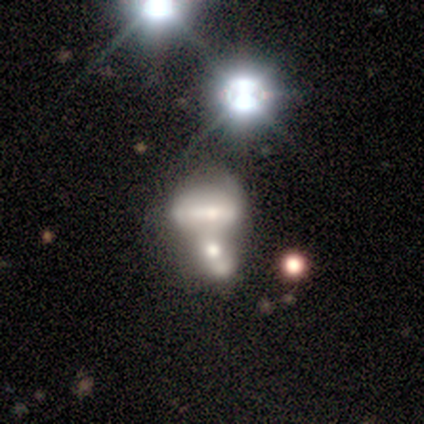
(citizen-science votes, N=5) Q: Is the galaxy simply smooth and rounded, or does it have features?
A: featured or disk — 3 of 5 (60%).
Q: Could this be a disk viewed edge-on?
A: yes — 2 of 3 (67%).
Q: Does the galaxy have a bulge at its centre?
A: rounded — 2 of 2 (100%).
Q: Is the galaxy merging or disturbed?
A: merger — 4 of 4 (100%).